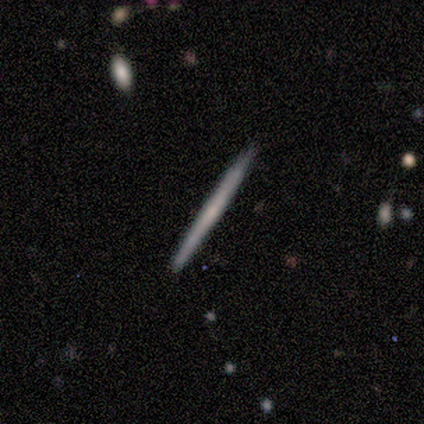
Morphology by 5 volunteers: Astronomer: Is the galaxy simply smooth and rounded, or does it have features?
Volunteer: smooth — 100%.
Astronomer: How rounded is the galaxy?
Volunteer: cigar-shaped — 100%.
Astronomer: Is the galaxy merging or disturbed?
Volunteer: none — 100%.